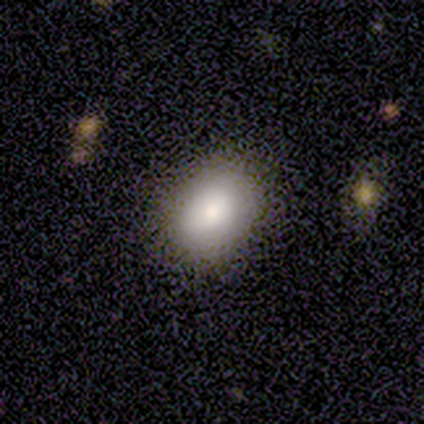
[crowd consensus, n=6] Smooth or featured: smooth — 100%
How rounded: in between — 83% (round — 17%)
Merging: none — 100%